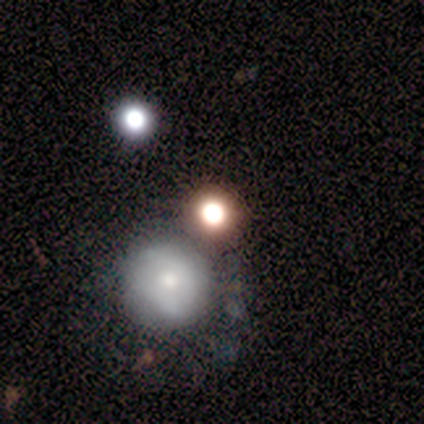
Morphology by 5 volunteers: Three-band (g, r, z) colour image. It shows a smooth galaxy with no disk features (80%) that is round (100%). Merging: none (60%).